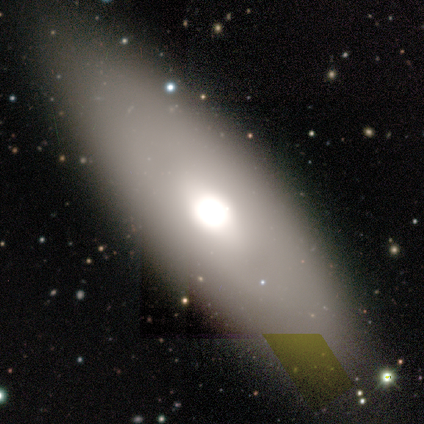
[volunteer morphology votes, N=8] smooth_or_featured: smooth (p=0.50) [alt: featured or disk p=0.38]
how_rounded: in between (p=0.50) [tied with: cigar-shaped p=0.50]
merging: none (p=0.86) [alt: major disturbance p=0.14]